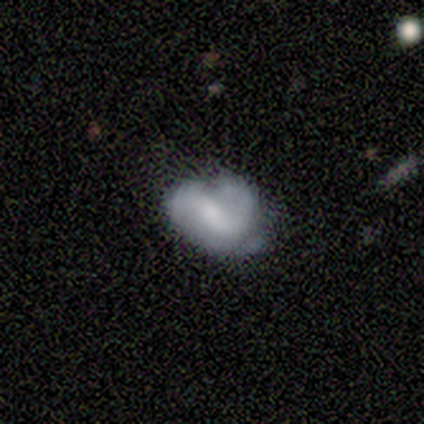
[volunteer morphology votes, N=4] featured or disk 75%, smooth 25%, star or artifact 0%. Down the decision tree: edge-on disk — no (100%); bar — no (67%); spiral arms — yes (67%); spiral arm count — 2 (50%, tied with can't tell); spiral winding — medium (50%, tied with loose); bulge size — small (67%); merging — none (50%, tied with major disturbance).